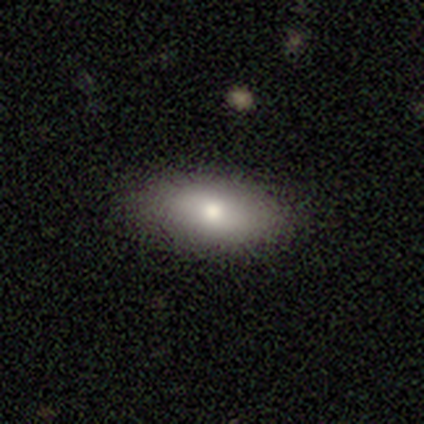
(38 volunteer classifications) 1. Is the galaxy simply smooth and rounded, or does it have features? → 89% smooth, 5% featured or disk, 5% star or artifact.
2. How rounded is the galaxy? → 97% in between, 3% cigar-shaped, 0% round.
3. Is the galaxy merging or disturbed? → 94% none, 6% minor disturbance, 0% major disturbance, 0% merger.